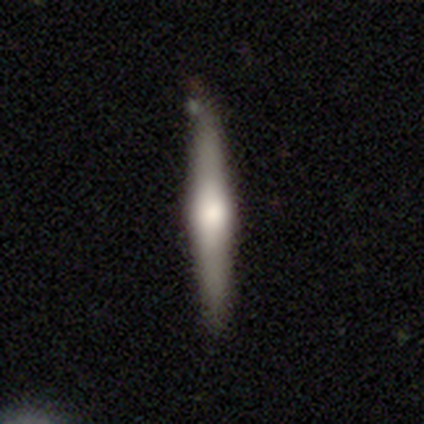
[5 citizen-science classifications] Volunteers were most divided on "smooth or featured": featured or disk: 80%, smooth: 20%, star or artifact: 0%. More confident: edge-on disk — yes (100%); edge-on bulge — rounded (100%); merging — none (80%).